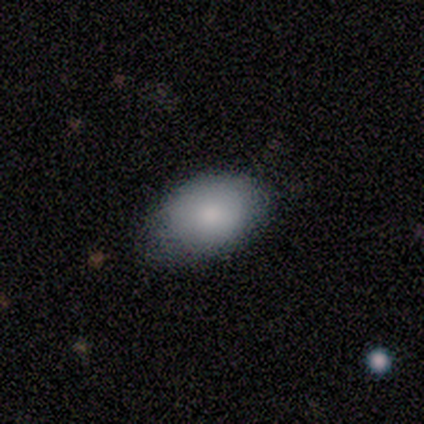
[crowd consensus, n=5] smooth 100%, featured or disk 0%, star or artifact 0%. Down the decision tree: how rounded — in between (100%); merging — none (80%).